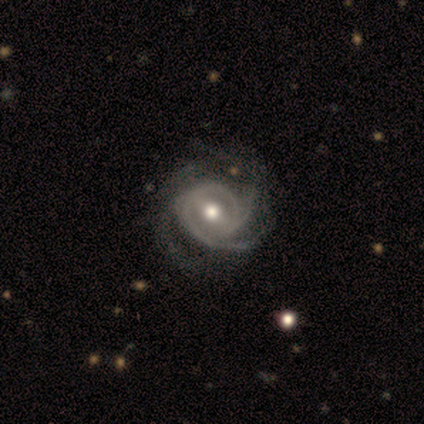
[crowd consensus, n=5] Smooth or featured? 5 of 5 (100%) said featured or disk. Edge-on disk? 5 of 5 (100%) said no. Bar? 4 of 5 (80%) said no. Spiral arms? 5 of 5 (100%) said yes. Spiral winding? 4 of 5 (80%) said medium. Spiral arm count? 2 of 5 (40%) said 3. Bulge size? 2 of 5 (40%, tied with moderate) said large. Merging? 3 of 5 (60%) said none.